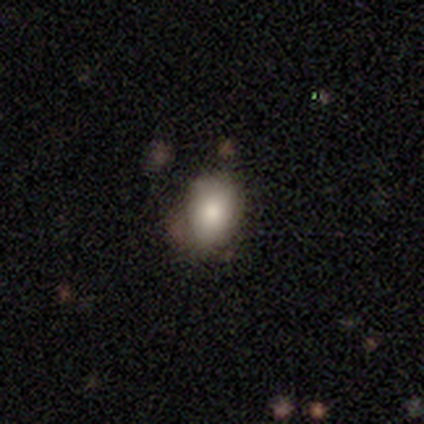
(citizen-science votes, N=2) Smooth or featured? smooth (100%)
How rounded? round (100%)
Merging? none (100%)